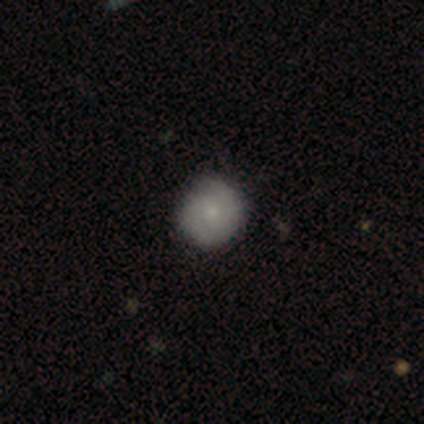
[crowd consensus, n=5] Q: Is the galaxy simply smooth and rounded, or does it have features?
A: featured or disk — 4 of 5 (80%).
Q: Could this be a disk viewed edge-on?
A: no — 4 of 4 (100%).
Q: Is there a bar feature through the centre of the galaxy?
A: no — 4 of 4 (100%).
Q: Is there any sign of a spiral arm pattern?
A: yes — 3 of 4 (75%).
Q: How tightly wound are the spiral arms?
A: tight — 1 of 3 (33%, tied with medium and loose).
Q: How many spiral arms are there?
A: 2 — 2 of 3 (67%).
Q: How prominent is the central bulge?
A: moderate — 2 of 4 (50%).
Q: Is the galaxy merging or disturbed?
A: none — 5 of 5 (100%).